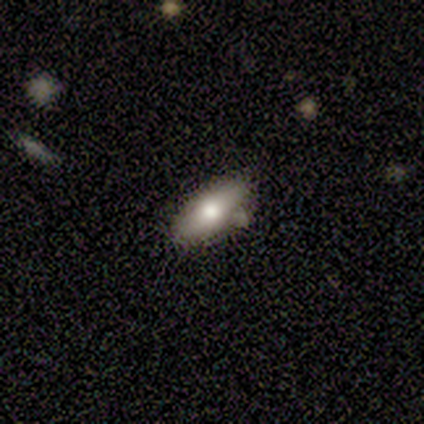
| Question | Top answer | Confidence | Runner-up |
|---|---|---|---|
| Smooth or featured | smooth | 50% | tied: featured or disk (50%) |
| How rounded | in between | 100% | — |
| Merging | none | 75% | minor disturbance (25%) |